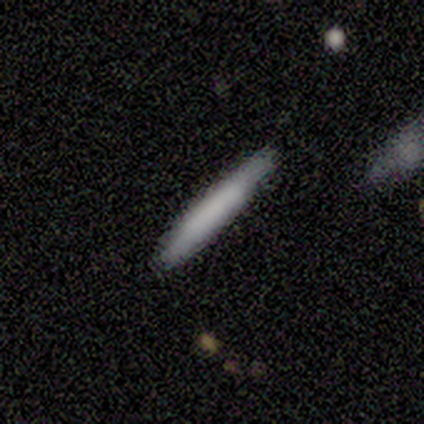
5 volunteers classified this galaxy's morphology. smooth 60%, featured or disk 20%, star or artifact 20%. Down the decision tree: how rounded — cigar-shaped (100%); merging — none (100%).